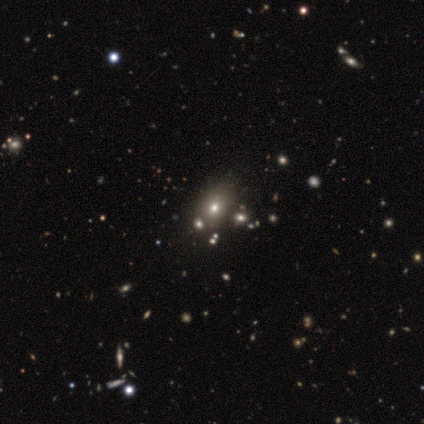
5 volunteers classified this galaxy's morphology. smooth-or-featured: smooth: 80% | featured or disk: 20% | star or artifact: 0%
  how-rounded: round: 50% (tied) | in between: 50% (tied) | cigar-shaped: 0%
  merging: none: 80% | minor disturbance: 20% | major disturbance: 0% | merger: 0%